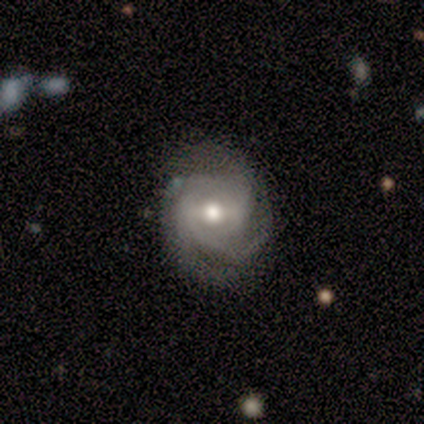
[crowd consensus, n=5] Smooth or featured? featured or disk (60%)
Edge-on disk? no (100%)
Bar? strong (67%)
Spiral arms? yes (100%)
Spiral winding? tight (67%)
Spiral arm count? 3 (67%)
Bulge size? moderate (100%)
Merging? none (60%)